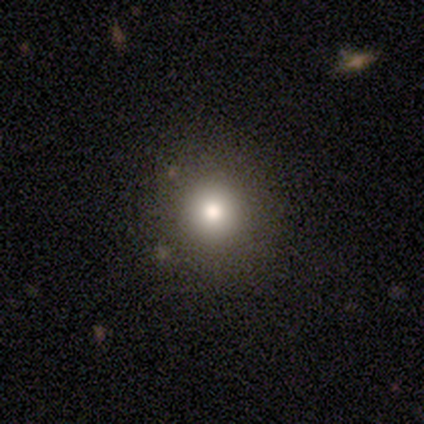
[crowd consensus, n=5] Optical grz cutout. It shows a smooth galaxy with no disk features (60%) that is round (100%). Merging: none (100%).